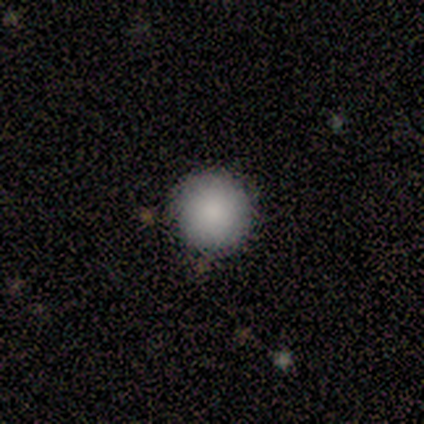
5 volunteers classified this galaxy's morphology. smooth 100%, featured or disk 0%, star or artifact 0%. Down the decision tree: how rounded — round (100%); merging — none (100%).